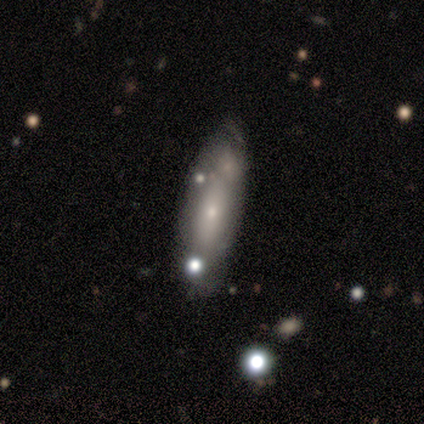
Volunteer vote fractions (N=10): Volunteers were most divided on "smooth or featured": featured or disk: 50%, smooth: 40%, star or artifact: 10%. Remaining: bar — no (100%); spiral arms — no (100%); bulge size — small (100%); edge-on disk — no (60%); merging — none (44%).